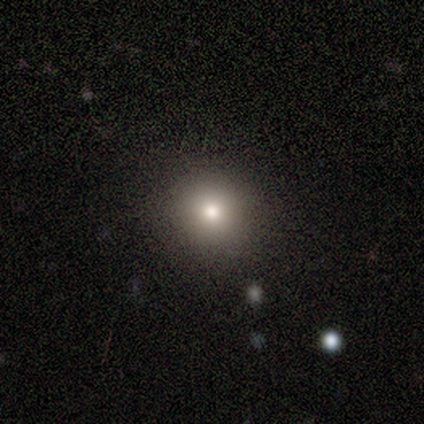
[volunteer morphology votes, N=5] Volunteers were most divided on "smooth or featured": smooth: 60%, featured or disk: 20%, star or artifact: 20%. More confident: how rounded — round (100%); merging — none (75%).